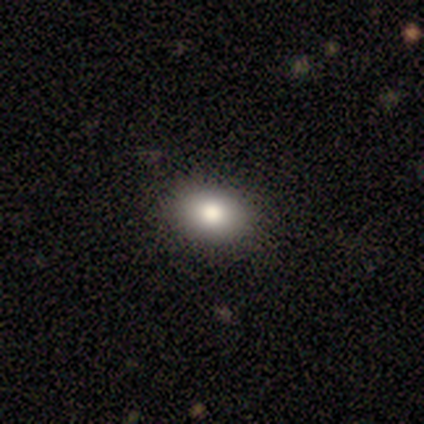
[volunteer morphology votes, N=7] smooth_or_featured: smooth (p=0.71) [alt: star or artifact p=0.29]
how_rounded: in between (p=0.80) [alt: round p=0.20]
merging: none (p=1.00)